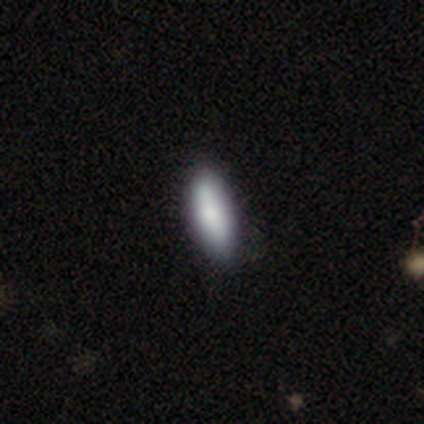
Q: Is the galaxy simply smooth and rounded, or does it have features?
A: smooth — 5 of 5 (100%).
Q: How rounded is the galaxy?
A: in between — 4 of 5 (80%).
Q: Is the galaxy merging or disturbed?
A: minor disturbance — 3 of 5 (60%).